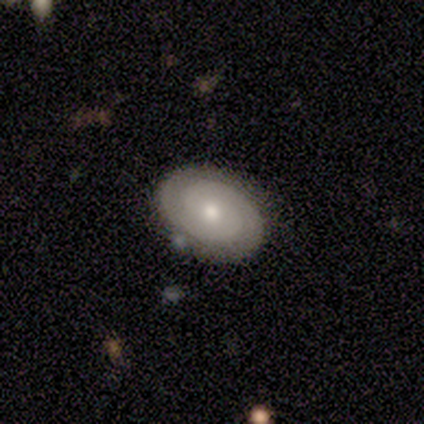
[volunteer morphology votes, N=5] This is clearly a featured or disk galaxy (100%). It is clearly not viewed edge-on (100%). Bar: likely no (60%). Spiral arm pattern: clearly yes (80%). Spiral arm count: likely 2 (75%). Spiral winding: likely tight (75%). Central bulge: likely moderate (60%). Merging: likely none (60%).